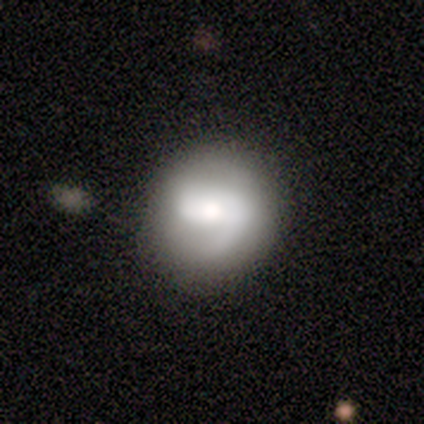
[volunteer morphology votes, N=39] type=featured or disk (67%); edge-on=no (100%); bar=no (42%); spiral arms=yes (73%); winding=medium (37%); arm count=1 (63%); bulge=moderate (73%); merging=none (63%).